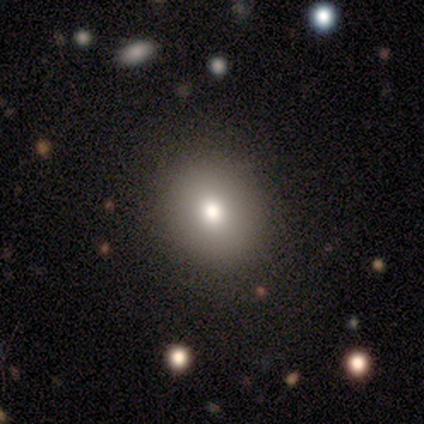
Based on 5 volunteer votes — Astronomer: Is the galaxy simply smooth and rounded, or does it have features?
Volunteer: smooth — 80%.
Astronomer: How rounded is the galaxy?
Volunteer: round — 75%.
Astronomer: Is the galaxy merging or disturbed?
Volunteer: none — 100%.